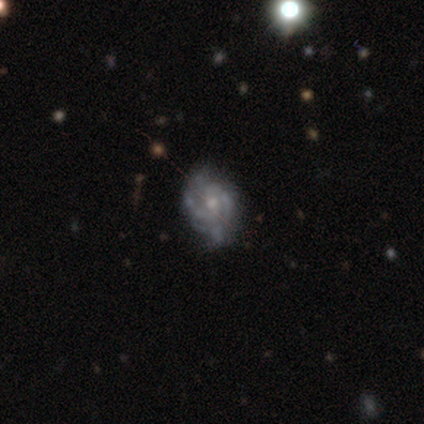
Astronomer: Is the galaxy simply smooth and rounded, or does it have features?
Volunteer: featured or disk — 75%.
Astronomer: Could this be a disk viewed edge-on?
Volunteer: no — 100%.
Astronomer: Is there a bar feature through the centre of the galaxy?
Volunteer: no — 100%.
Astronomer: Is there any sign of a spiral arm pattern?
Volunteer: yes — 100%.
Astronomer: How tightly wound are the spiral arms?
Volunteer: tight — 67%.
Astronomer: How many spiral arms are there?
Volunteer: can't tell — 67%.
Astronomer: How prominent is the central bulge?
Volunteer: moderate — 33%, tied with small and none at 33%.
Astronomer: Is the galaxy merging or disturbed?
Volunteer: none — 67%.